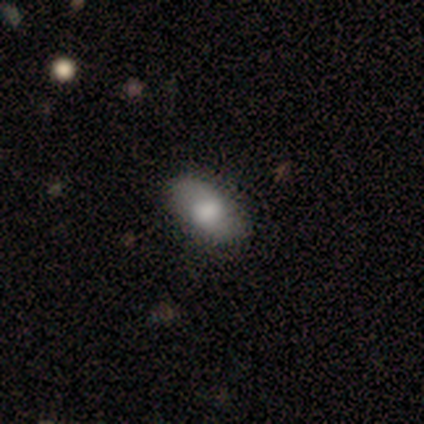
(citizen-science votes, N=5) A smooth galaxy with no disk features (60%) that is in between round and cigar-shaped (100%). Merging: none (80%).